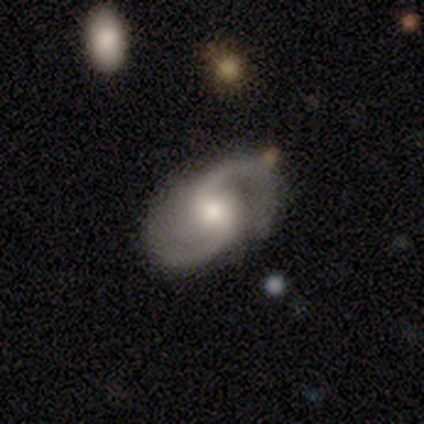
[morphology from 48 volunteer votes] A featured or disk galaxy (85%) with no bar (49%), 2 (97%) medium (54%) spiral arms (95%) and a moderate central bulge (70%). Merging: none (84%).